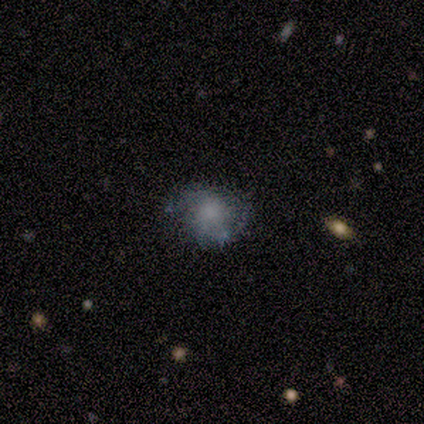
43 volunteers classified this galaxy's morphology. Volunteers were most divided on "smooth or featured": smooth: 51%, featured or disk: 44%, star or artifact: 5%. More confident: merging — none (68%); how rounded — round (64%).